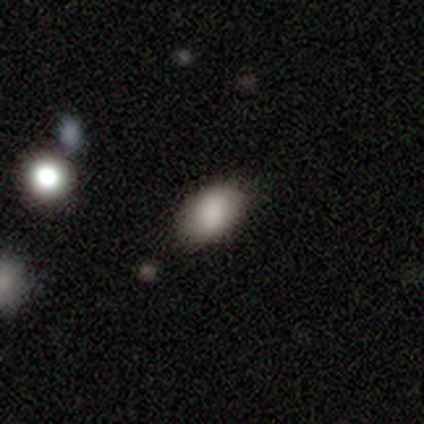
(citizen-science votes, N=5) Smooth or featured: smooth — 100%
How rounded: in between — 100%
Merging: none — 80% (major disturbance — 20%)